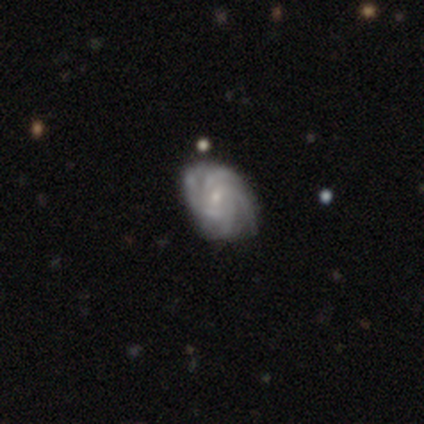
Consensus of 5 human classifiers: Morphology: type=featured or disk (80%); edge-on=no (100%); bar=weak (50%, tied with no); spiral arms=yes (100%); winding=tight (100%); arm count=4 (100%); bulge=moderate (50%, tied with small); merging=none (100%).